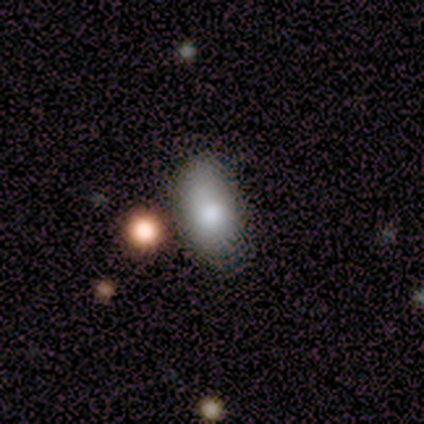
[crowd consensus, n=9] smooth 89%, featured or disk 11%, star or artifact 0%. Down the decision tree: how rounded — in between (100%); merging — none (89%).